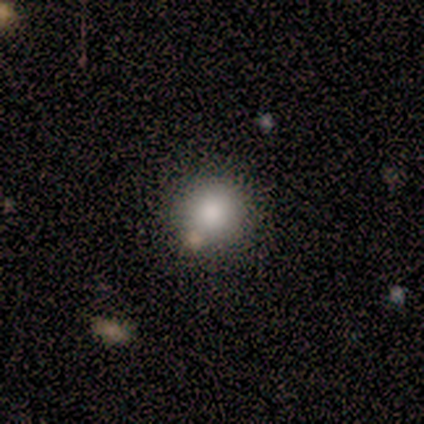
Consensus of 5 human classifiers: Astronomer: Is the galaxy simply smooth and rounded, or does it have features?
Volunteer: smooth — 80%.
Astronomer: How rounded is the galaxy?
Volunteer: round — 100%.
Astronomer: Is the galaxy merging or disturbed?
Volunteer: none — 50%, tied with minor disturbance at 50%.